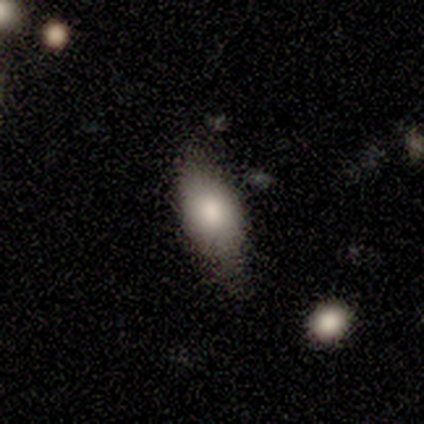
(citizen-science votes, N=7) This appears to be a smooth galaxy with no disk features (71%) that is in between round and cigar-shaped (80%). Merging: none (86%).